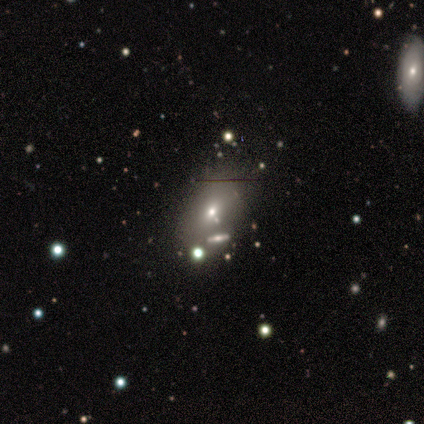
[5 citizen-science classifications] Smooth or featured: featured or disk — 40% (tied with star or artifact — 40%)
Edge-on disk: yes — 50% (tied with no — 50%)
Edge-on bulge: rounded — 100%
Merging: none — 67% (merger — 33%)